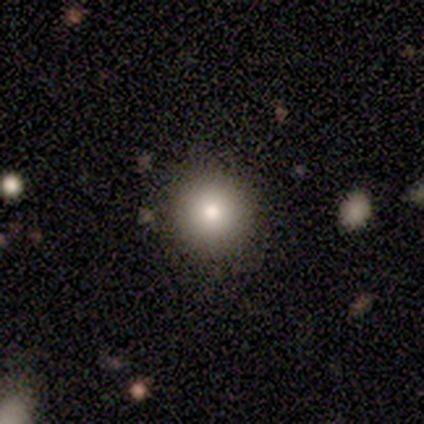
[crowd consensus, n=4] Smooth or featured? 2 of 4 (50%) said star or artifact.